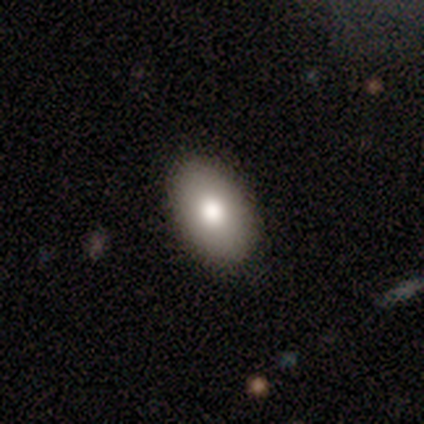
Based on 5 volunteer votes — This is clearly a smooth galaxy (80%). How rounded: likely in between (75%). Merging: clearly none (100%).